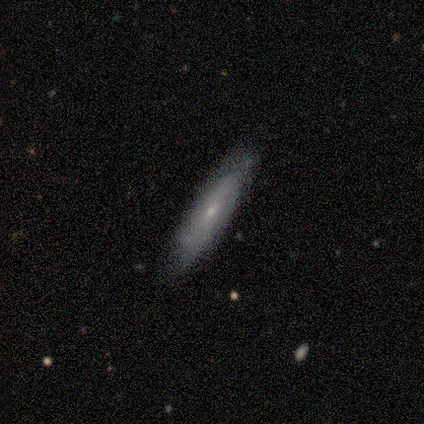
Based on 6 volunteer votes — smooth-or-featured: featured or disk: 67% | smooth: 33% | star or artifact: 0%
  disk-edge-on: no: 75% | yes: 25%
    bar: no: 100% | strong: 0% | weak: 0%
    has-spiral-arms: yes: 67% | no: 33%
      spiral-winding: tight: 50% (tied) | medium: 50% (tied) | loose: 0%
      spiral-arm-count: 2: 100% | 1: 0% | 3: 0% | 4: 0% | more than 4: 0% | can't tell: 0%
    bulge-size: small: 67% | moderate: 33% | dominant: 0% | large: 0% | none: 0%
  merging: none: 67% | minor disturbance: 33% | major disturbance: 0% | merger: 0%